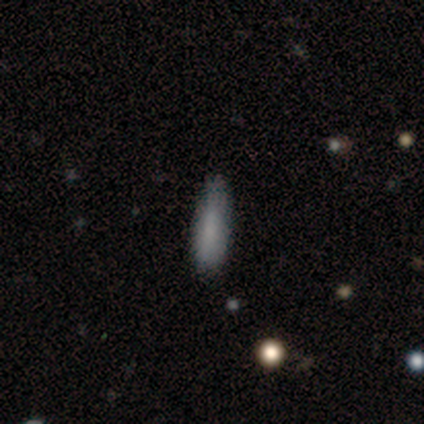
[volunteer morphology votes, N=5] Overall: smooth (100%). How rounded: in between (60%; cigar-shaped 40%). Merging: none (80%).